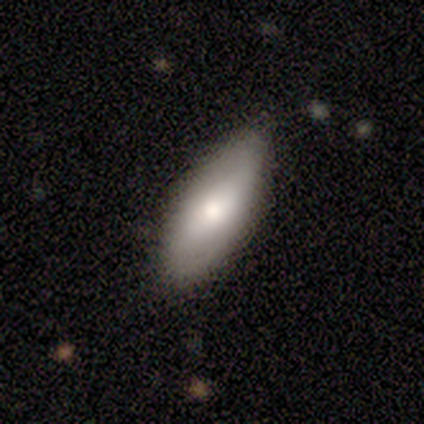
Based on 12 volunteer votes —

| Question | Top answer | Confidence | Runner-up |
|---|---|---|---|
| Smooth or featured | smooth | 83% | featured or disk (17%) |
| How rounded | in between | 80% | cigar-shaped (20%) |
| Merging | none | 92% | minor disturbance (8%) |